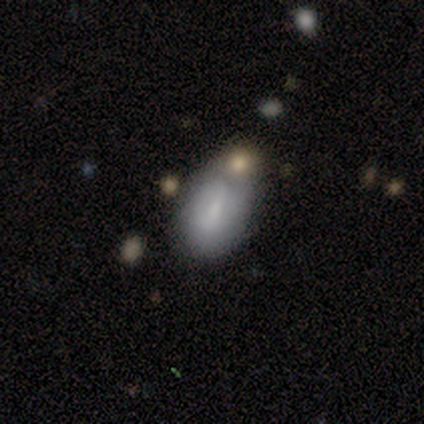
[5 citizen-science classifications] smooth 60%, featured or disk 40%, star or artifact 0%. Down the decision tree: how rounded — in between (67%); merging — merger (60%).